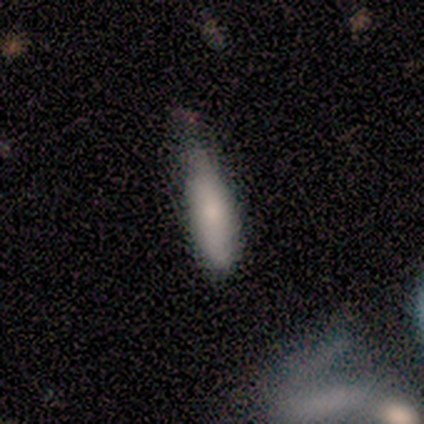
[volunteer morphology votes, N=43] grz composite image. It shows a smooth galaxy with no disk features (77%) that is cigar-shaped (52%). Merging: minor disturbance (51%).